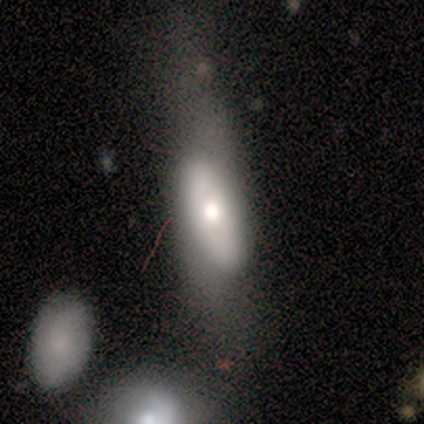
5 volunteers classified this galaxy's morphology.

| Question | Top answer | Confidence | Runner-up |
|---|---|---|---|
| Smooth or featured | smooth | 40% | tied: featured or disk (40%) |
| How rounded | in between | 100% | — |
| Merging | minor disturbance | 50% | none (25%) |